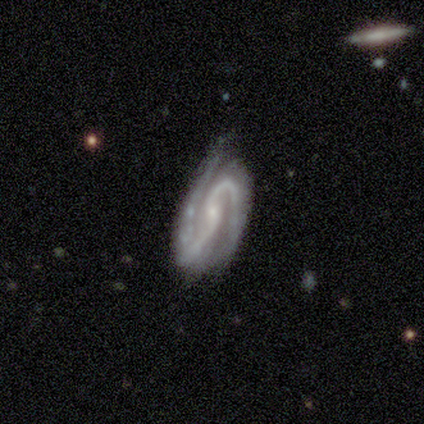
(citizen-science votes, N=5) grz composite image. It shows a featured or disk galaxy (100%) with a strong bar (60%), 2 (80%) medium (40%, tied with loose) spiral arms (100%) and a small central bulge (60%). Merging: minor disturbance (80%).